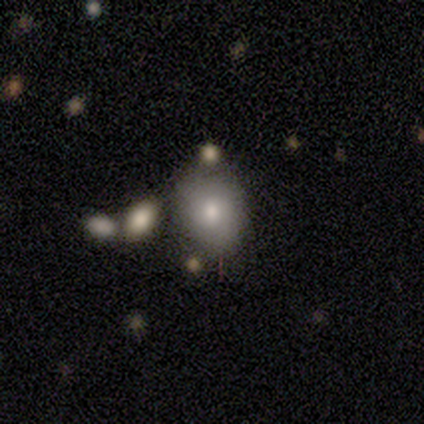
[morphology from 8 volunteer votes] Smooth or featured?
  - smooth: 62% *
  - featured or disk: 25%
  - star or artifact: 12%
How rounded?
  - round: 60% *
  - in between: 40%
  - cigar-shaped: 0%
Merging?
  - none: 86% *
  - minor disturbance: 14%
  - major disturbance: 0%
  - merger: 0%